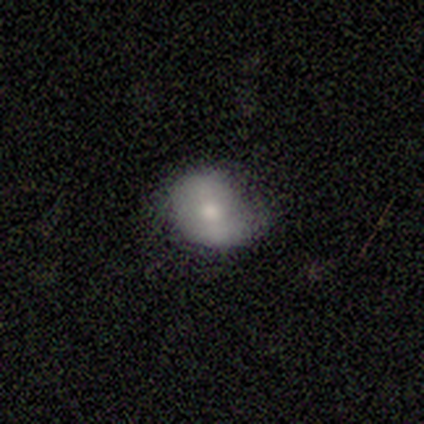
This is likely a smooth galaxy (75%). How rounded: likely round (67%). Merging: likely none (67%).